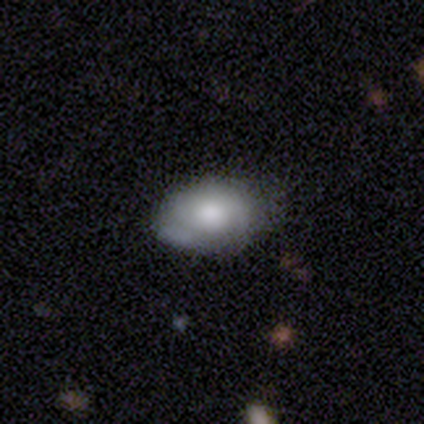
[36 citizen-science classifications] This is clearly a smooth galaxy (81%). How rounded: clearly in between (93%). Merging: likely none (65%).